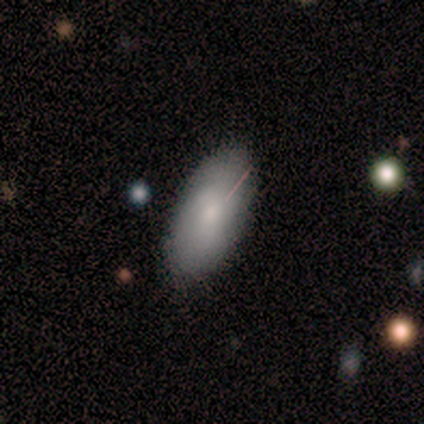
smooth 60%, featured or disk 40%, star or artifact 0%. Down the decision tree: how rounded — in between (100%); merging — none (80%).